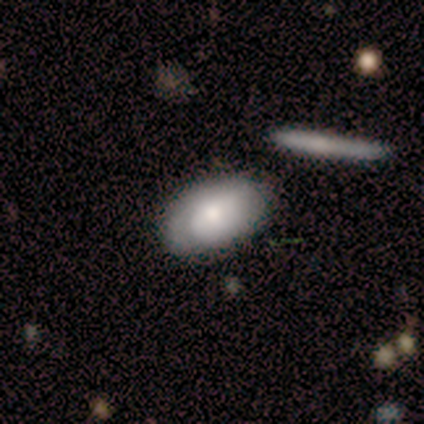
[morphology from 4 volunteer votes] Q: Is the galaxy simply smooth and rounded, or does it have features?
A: smooth — 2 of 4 (50%, tied with featured or disk).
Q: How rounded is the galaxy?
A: in between — 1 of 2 (50%, tied with cigar-shaped).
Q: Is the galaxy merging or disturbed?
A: none — 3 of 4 (75%).